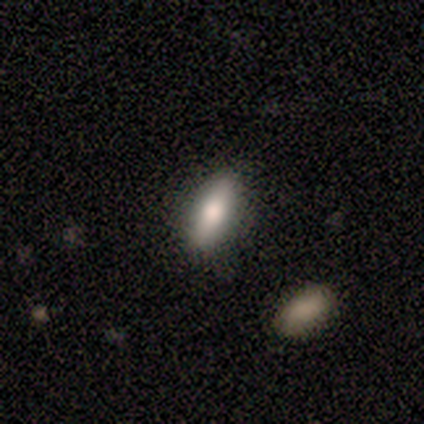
This appears to be a smooth galaxy with no disk features (50%) that is in between round and cigar-shaped (50%, tied with cigar-shaped). Merging: none (100%).